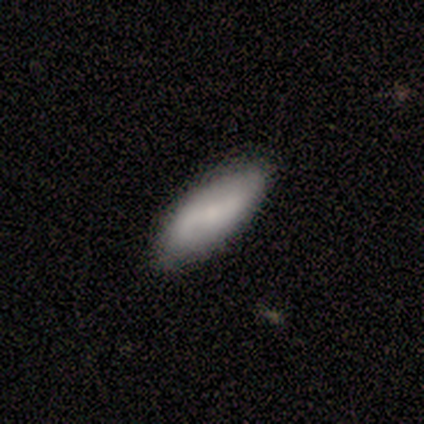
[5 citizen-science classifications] This is likely a smooth galaxy (60%). How rounded: clearly in between (100%). Merging: marginally none (40%, tied with minor disturbance).